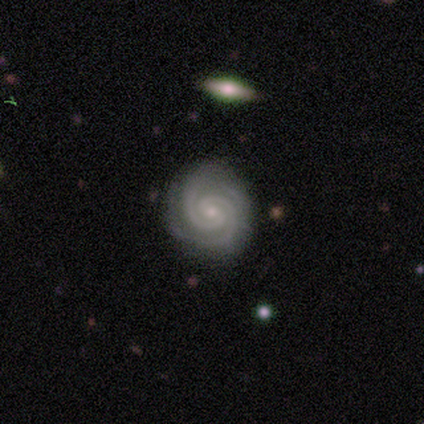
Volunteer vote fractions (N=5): A featured or disk galaxy (80%) with no bar (75%), 2 (100%) tight (100%) spiral arms (100%) and a moderate central bulge (50%, tied with small). Merging: none (75%).